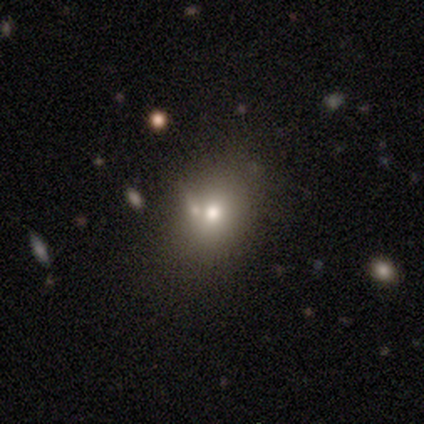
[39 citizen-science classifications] Smooth or featured?
  - smooth: 67% *
  - featured or disk: 23%
  - star or artifact: 10%
How rounded?
  - in between: 54% *
  - round: 46%
  - cigar-shaped: 0%
Merging?
  - none: 57% *
  - merger: 23%
  - minor disturbance: 14%
  - major disturbance: 6%